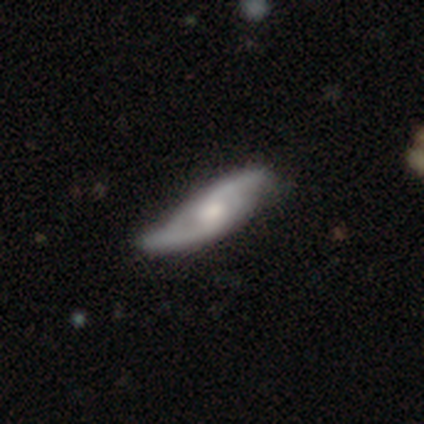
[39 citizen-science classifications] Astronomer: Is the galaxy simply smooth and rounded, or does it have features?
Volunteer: featured or disk — 79%.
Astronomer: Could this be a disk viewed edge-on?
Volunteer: no — 94%.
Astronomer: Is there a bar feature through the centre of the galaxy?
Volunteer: no — 59%.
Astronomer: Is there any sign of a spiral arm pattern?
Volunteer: yes — 97%.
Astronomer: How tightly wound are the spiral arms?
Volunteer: loose — 68%.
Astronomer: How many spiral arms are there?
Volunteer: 2 — 96%.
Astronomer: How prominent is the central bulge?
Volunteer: moderate — 55%.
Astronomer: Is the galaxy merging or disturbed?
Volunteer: none — 31% (runner-up: minor disturbance, 28%).